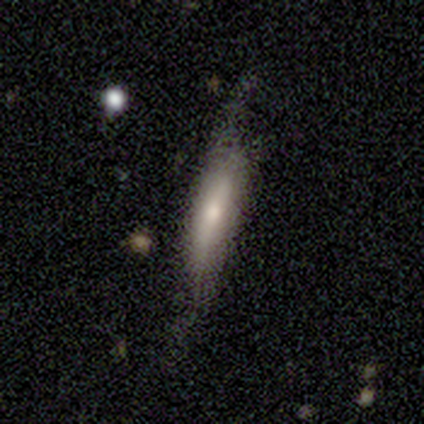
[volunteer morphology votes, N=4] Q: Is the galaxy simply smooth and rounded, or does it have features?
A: smooth — 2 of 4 (50%, tied with featured or disk).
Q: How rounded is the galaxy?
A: in between — 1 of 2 (50%, tied with cigar-shaped).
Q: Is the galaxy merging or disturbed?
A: minor disturbance — 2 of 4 (50%).